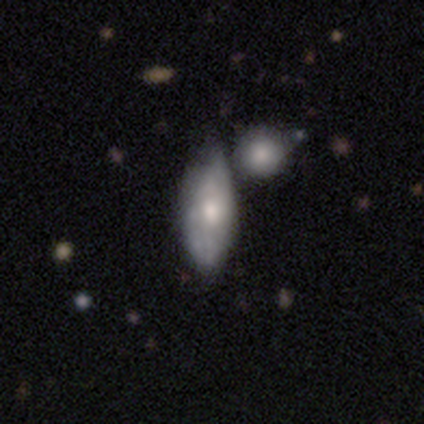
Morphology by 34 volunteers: This is likely a smooth galaxy (76%). How rounded: clearly in between (85%). Merging: possibly merger (50%).